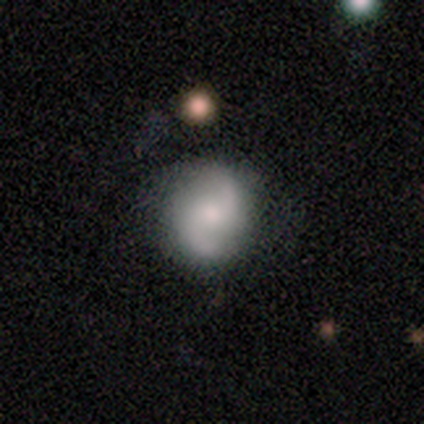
Morphology: type=featured or disk (82%); edge-on=no (100%); bar=no (67%); spiral arms=yes (88%); winding=loose (55%); arm count=2 (90%); bulge=small (52%); merging=none (62%).